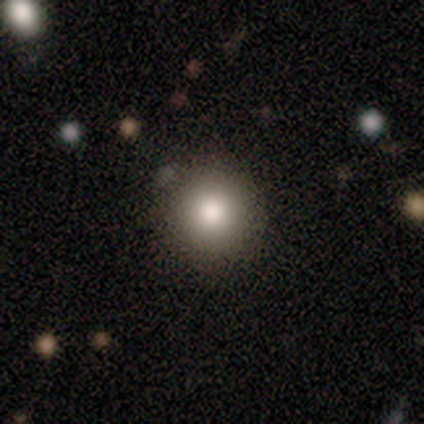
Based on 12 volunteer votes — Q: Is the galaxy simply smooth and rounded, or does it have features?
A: smooth — 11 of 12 (92%).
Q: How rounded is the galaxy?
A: round — 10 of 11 (91%).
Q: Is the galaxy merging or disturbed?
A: none — 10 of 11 (91%).